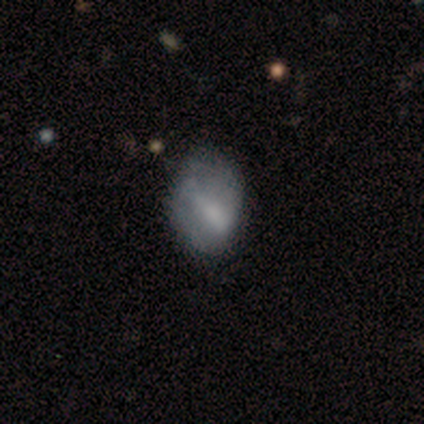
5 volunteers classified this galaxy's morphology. featured or disk 60%, smooth 20%, star or artifact 20%. Down the decision tree: edge-on disk — no (100%); bar — weak (67%); spiral arms — yes (67%); spiral arm count — 2 (50%, tied with can't tell); spiral winding — tight (50%, tied with medium); bulge size — moderate (67%); merging — none (75%).